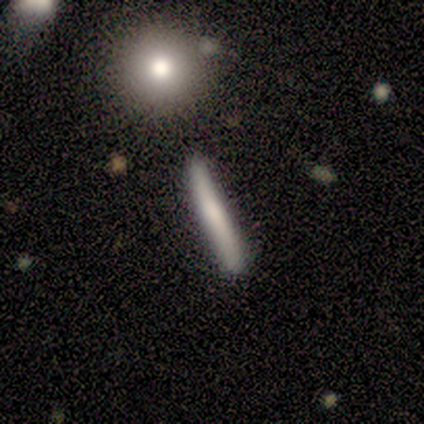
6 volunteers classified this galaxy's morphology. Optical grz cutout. It shows a smooth galaxy with no disk features (67%) that is cigar-shaped (75%). Merging: none (80%).